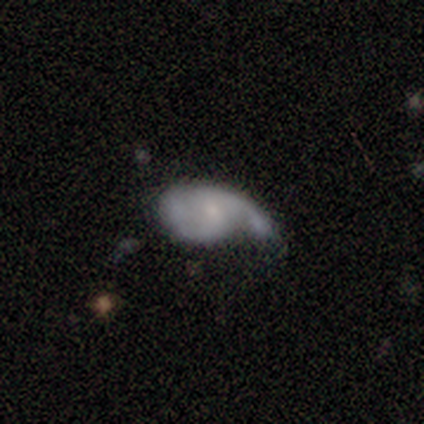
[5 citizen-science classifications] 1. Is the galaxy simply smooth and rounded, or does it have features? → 80% featured or disk, 20% smooth, 0% star or artifact.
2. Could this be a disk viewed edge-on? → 100% no, 0% yes.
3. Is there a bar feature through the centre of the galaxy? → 75% no, 25% strong, 0% weak.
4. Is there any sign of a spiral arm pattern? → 75% yes, 25% no.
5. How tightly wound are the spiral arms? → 33% tight (tied), 33% medium (tied), 33% loose (tied).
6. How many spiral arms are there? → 67% 2, 33% 1, 0% 3, 0% 4, 0% more than 4, 0% can't tell.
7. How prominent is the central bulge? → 50% small, 25% moderate, 25% none, 0% dominant, 0% large.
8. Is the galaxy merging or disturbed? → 40% none (tied), 40% major disturbance (tied), 20% merger, 0% minor disturbance.